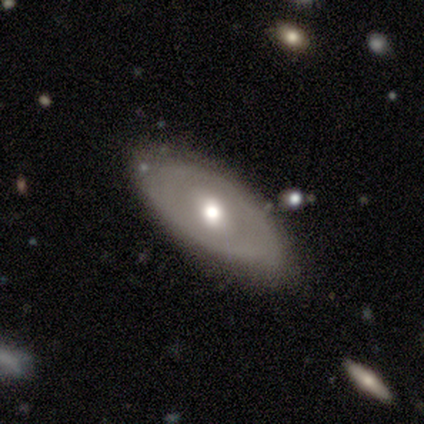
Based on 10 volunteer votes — smooth-or-featured: featured or disk: 80% | smooth: 20% | star or artifact: 0%
  disk-edge-on: no: 88% | yes: 12%
    bar: no: 86% | weak: 14% | strong: 0%
    has-spiral-arms: no: 86% | yes: 14%
    bulge-size: moderate: 86% | small: 14% | dominant: 0% | large: 0% | none: 0%
  merging: none: 70% | minor disturbance: 20% | major disturbance: 10% | merger: 0%